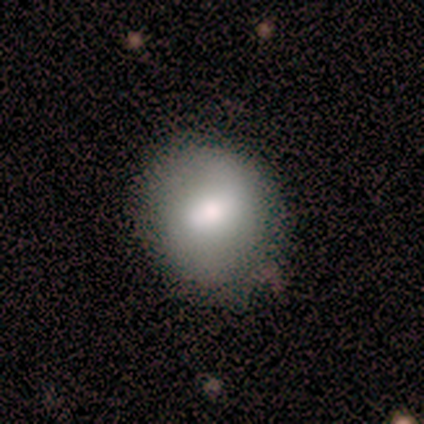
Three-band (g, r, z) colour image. It shows a smooth galaxy with no disk features (75%) that is in between round and cigar-shaped (67%). Merging: none (67%).